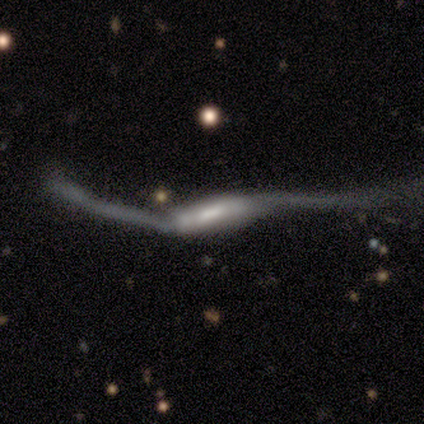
A featured or disk galaxy (100%) with no bar (67%), 2 (67%) loose (100%) spiral arms (100%) and a large central bulge (67%).

Vote fractions:
- Smooth or featured? featured or disk: 100% / smooth: 0% / star or artifact: 0%
- Edge-on disk? no: 60% / yes: 40%
- Bar? no: 67% / strong: 33% / weak: 0%
- Spiral arms? yes: 100% / no: 0%
- Spiral winding? loose: 100% / tight: 0% / medium: 0%
- Spiral arm count? 2: 67% / can't tell: 33% / 1: 0% / 3: 0% / 4: 0% / more than 4: 0%
- Bulge size? large: 67% / moderate: 33% / dominant: 0% / small: 0% / none: 0%
- Merging? major disturbance: 100% / none: 0% / minor disturbance: 0% / merger: 0%